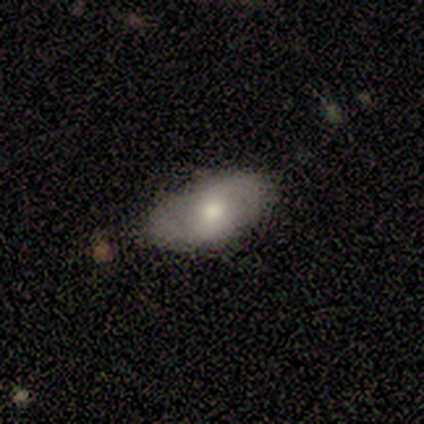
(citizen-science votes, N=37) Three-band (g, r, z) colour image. It shows a smooth galaxy with no disk features (57%) that is in between round and cigar-shaped (100%). Merging: none (86%).